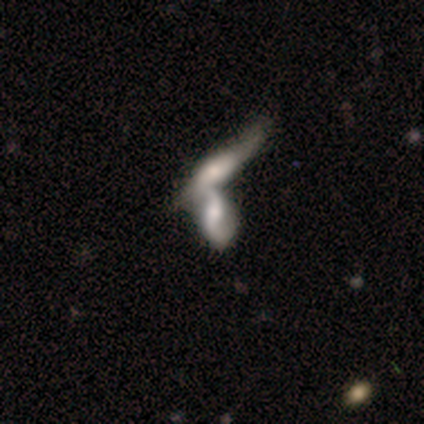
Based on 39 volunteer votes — Overall: featured or disk (74%). Edge-on disk: no (79%). Bar: no (52%; weak 39%). Spiral arms: yes (87%). Spiral arm count: 2 (80%). Spiral winding: loose (80%). Bulge size: moderate (52%; small 26%). Merging: merger (84%).